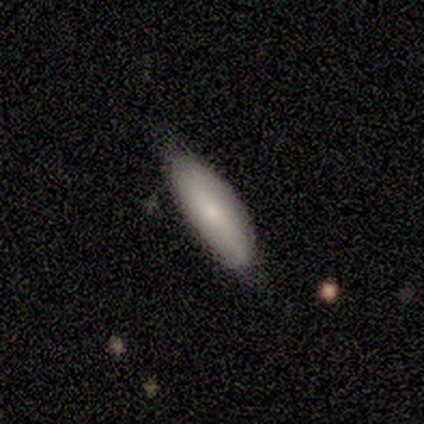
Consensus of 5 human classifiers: This is clearly a smooth galaxy (100%). How rounded: likely cigar-shaped (60%). Merging: clearly none (80%).